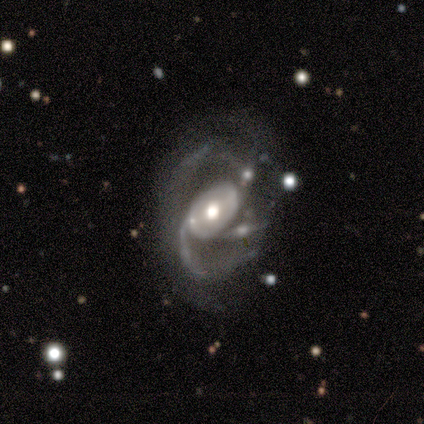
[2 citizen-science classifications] This appears to be a featured or disk galaxy (100%) with a strong bar (50%, tied with weak), 2 (50%, tied with 3) loose (100%) spiral arms (100%) and a large central bulge (100%). Merging: none (100%).